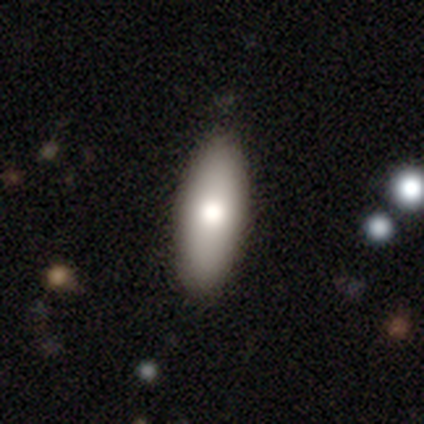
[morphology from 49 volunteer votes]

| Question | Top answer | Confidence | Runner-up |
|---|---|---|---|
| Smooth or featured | smooth | 88% | featured or disk (10%) |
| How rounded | in between | 65% | cigar-shaped (33%) |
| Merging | none | 79% | minor disturbance (19%) |